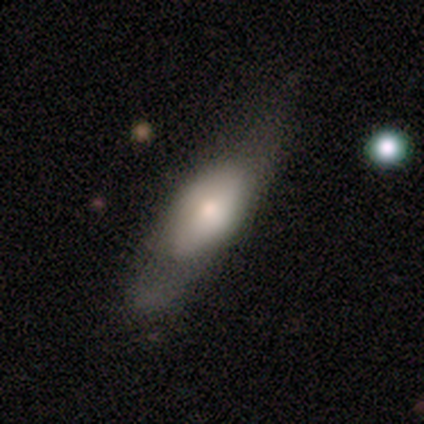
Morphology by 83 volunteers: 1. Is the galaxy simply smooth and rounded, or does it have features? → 57% smooth, 37% featured or disk, 6% star or artifact.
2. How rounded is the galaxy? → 62% in between, 32% cigar-shaped, 6% round.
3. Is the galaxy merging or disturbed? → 49% none, 29% minor disturbance, 18% major disturbance, 4% merger.